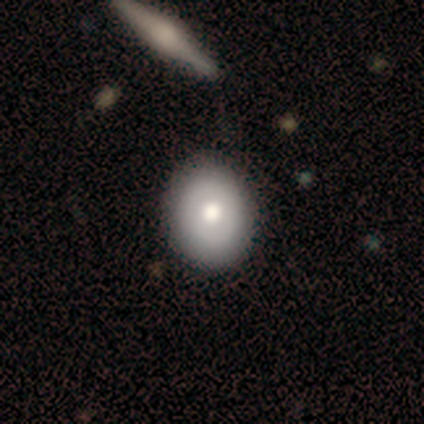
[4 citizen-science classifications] smooth_or_featured: smooth (p=0.50) [tied with: featured or disk p=0.50]
how_rounded: round (p=1.00)
merging: none (p=1.00)